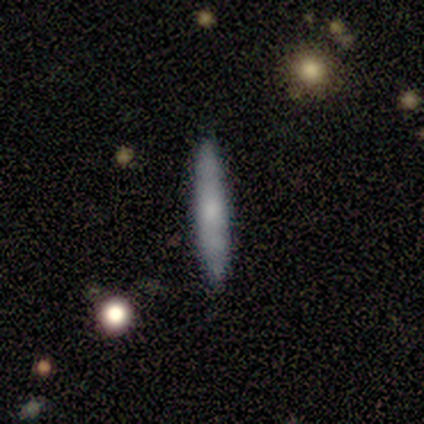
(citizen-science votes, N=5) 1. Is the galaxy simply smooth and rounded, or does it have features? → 100% smooth, 0% featured or disk, 0% star or artifact.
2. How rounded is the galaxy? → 100% cigar-shaped, 0% round, 0% in between.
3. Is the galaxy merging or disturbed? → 100% none, 0% minor disturbance, 0% major disturbance, 0% merger.